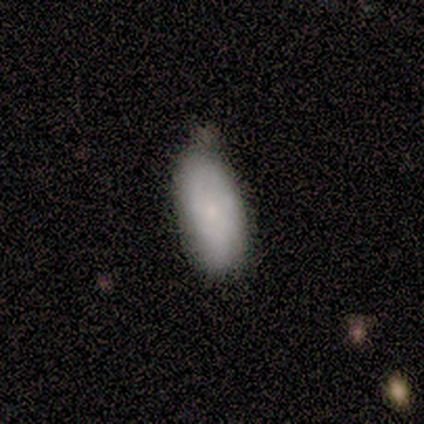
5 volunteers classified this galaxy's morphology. smooth-or-featured: smooth: 100% | featured or disk: 0% | star or artifact: 0%
  how-rounded: in between: 100% | round: 0% | cigar-shaped: 0%
  merging: none: 60% | minor disturbance: 40% | major disturbance: 0% | merger: 0%